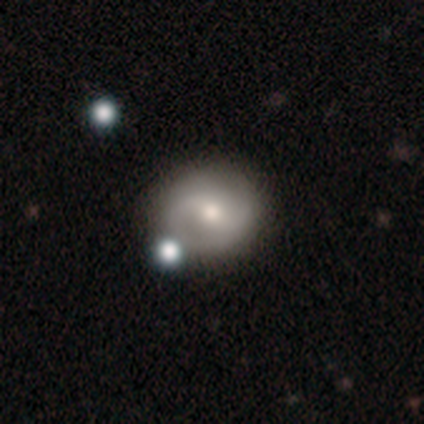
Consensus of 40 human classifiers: Q: Smooth or featured?
A: featured or disk (50%); runner-up: smooth (45%)
Q: Edge-on disk?
A: no (100%)
Q: Bar?
A: weak (40%); tied with: no (40%)
Q: Spiral arms?
A: yes (75%); runner-up: no (25%)
Q: Spiral winding?
A: medium (67%); runner-up: tight (20%)
Q: Spiral arm count?
A: 2 (87%); runner-up: 1 (7%)
Q: Bulge size?
A: moderate (70%); runner-up: small (20%)
Q: Merging?
A: none (76%); runner-up: merger (16%)